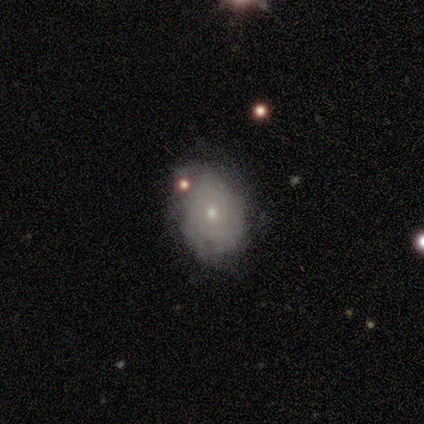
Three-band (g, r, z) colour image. It shows a featured or disk galaxy (58%) with no bar (82%), tight (87%) spiral arms (68%) and a small central bulge (82%). Merging: none (68%).